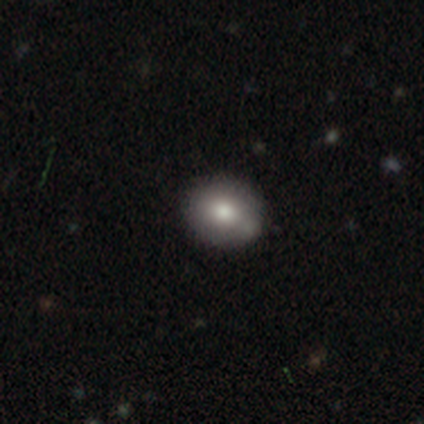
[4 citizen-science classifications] Smooth or featured?
  - smooth: 50% *
  - featured or disk: 25%
  - star or artifact: 25%
How rounded?
  - round: 100% *
  - in between: 0%
  - cigar-shaped: 0%
Merging?
  - none: 100% *
  - minor disturbance: 0%
  - major disturbance: 0%
  - merger: 0%